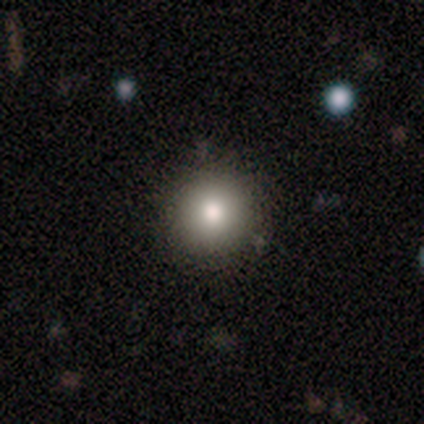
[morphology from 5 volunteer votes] Smooth or featured? 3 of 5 (60%) said star or artifact.